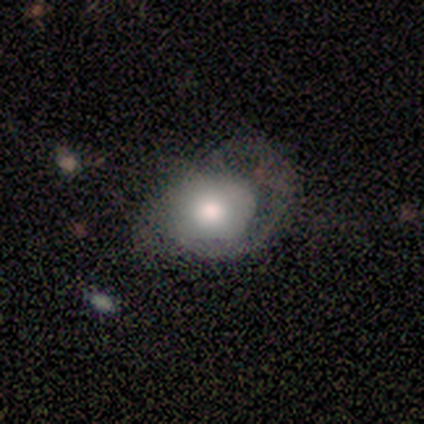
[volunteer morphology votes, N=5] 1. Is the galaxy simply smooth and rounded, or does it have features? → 60% featured or disk, 40% smooth, 0% star or artifact.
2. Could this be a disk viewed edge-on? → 100% no, 0% yes.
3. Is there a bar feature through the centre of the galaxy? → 67% no, 33% weak, 0% strong.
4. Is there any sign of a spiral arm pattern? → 67% yes, 33% no.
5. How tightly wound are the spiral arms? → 100% medium, 0% tight, 0% loose.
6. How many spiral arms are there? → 50% 1 (tied), 50% can't tell (tied), 0% 2, 0% 3, 0% 4, 0% more than 4.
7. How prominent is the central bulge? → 67% large, 33% moderate, 0% dominant, 0% small, 0% none.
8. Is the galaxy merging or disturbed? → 40% none (tied), 40% major disturbance (tied), 20% minor disturbance, 0% merger.